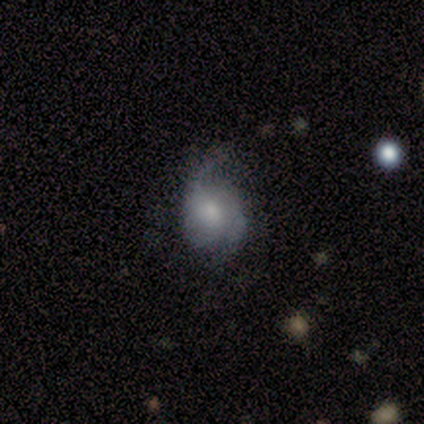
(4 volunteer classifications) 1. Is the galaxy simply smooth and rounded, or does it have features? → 100% featured or disk, 0% smooth, 0% star or artifact.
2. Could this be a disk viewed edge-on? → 100% no, 0% yes.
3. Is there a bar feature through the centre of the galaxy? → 50% weak (tied), 50% no (tied), 0% strong.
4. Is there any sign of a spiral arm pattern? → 100% yes, 0% no.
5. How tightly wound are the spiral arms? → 75% loose, 25% tight, 0% medium.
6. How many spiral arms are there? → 100% 2, 0% 1, 0% 3, 0% 4, 0% more than 4, 0% can't tell.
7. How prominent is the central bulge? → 50% moderate (tied), 50% small (tied), 0% dominant, 0% large, 0% none.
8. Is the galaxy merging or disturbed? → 50% none, 25% minor disturbance, 25% major disturbance, 0% merger.